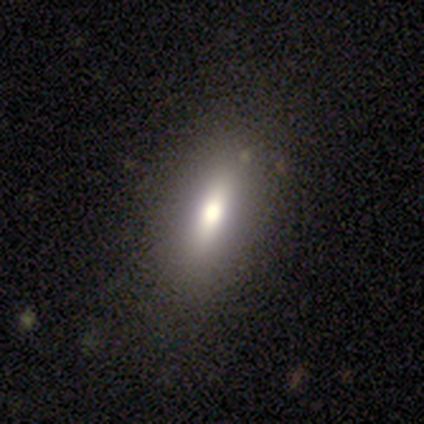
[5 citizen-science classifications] smooth-or-featured: featured or disk: 60% | smooth: 40% | star or artifact: 0%
  disk-edge-on: yes: 67% | no: 33%
    edge-on-bulge: rounded: 100% | boxy: 0% | none: 0%
  merging: minor disturbance: 40% (tied) | major disturbance: 40% (tied) | none: 20% | merger: 0%